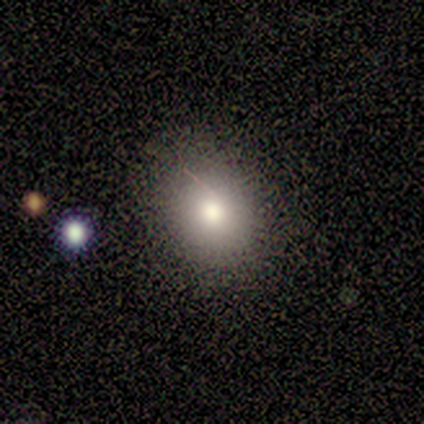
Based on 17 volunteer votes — Smooth or featured? smooth (65%)
How rounded? round (73%)
Merging? none (92%)